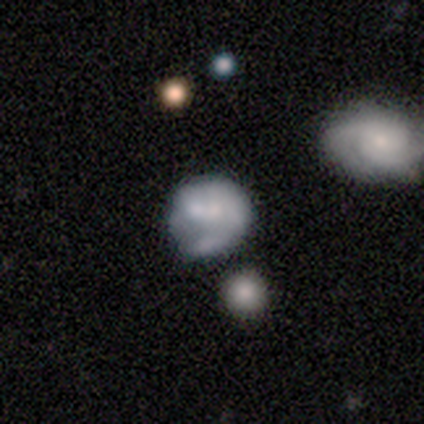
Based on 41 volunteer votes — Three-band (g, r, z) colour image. It shows a featured or disk galaxy (54%) with no bar (95%), no spiral arms (68%) and no central bulge (50%). Merging: none (28%).